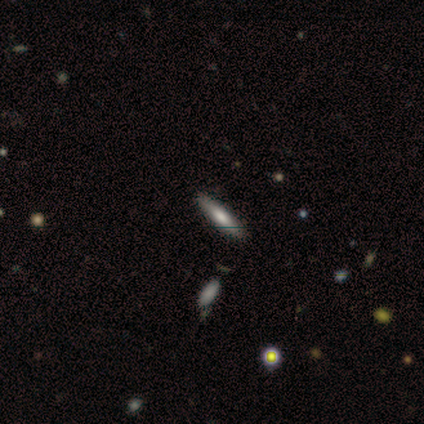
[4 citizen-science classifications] Q: Smooth or featured?
A: smooth (100%)
Q: How rounded?
A: cigar-shaped (100%)
Q: Merging?
A: none (75%); runner-up: merger (25%)